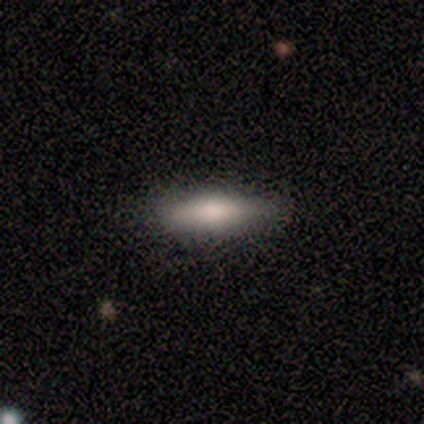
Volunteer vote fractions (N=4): Q: Smooth or featured?
A: smooth (75%); runner-up: featured or disk (25%)
Q: How rounded?
A: in between (67%); runner-up: cigar-shaped (33%)
Q: Merging?
A: none (100%)